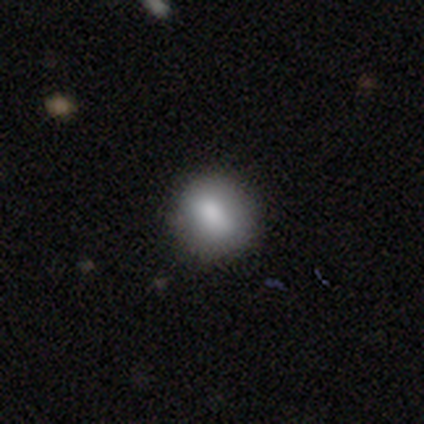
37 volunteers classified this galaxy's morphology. Smooth or featured?
  - smooth: 92% *
  - featured or disk: 5%
  - star or artifact: 3%
How rounded?
  - round: 71% *
  - in between: 29%
  - cigar-shaped: 0%
Merging?
  - none: 92% *
  - minor disturbance: 6%
  - merger: 3%
  - major disturbance: 0%